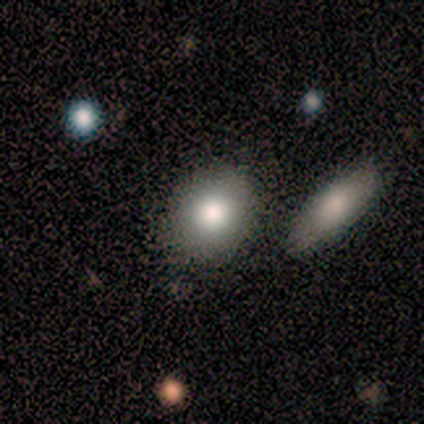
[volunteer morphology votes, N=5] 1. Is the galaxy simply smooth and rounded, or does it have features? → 80% smooth, 20% featured or disk, 0% star or artifact.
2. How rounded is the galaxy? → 100% round, 0% in between, 0% cigar-shaped.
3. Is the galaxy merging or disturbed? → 100% none, 0% minor disturbance, 0% major disturbance, 0% merger.